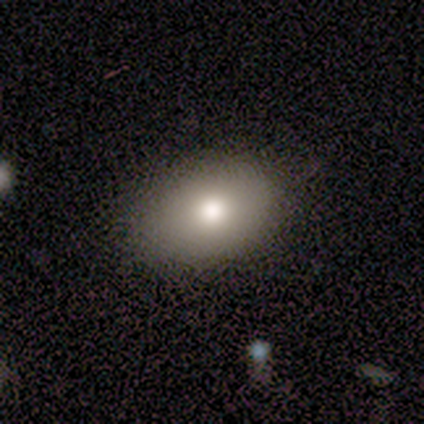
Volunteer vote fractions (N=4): Overall: smooth (50%; featured or disk 25%). How rounded: round (50%, tied with in between). Merging: none (67%; minor disturbance 33%).